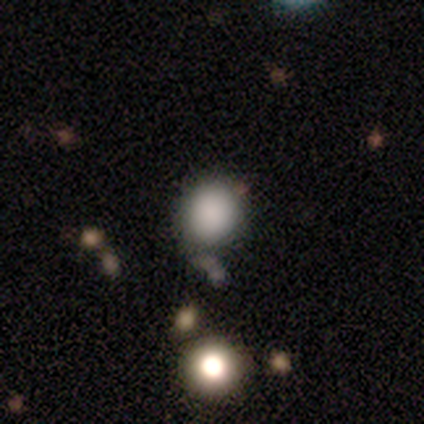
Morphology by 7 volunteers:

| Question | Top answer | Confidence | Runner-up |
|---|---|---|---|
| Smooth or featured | smooth | 86% | star or artifact (14%) |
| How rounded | round | 83% | in between (17%) |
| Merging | none | 100% | — |